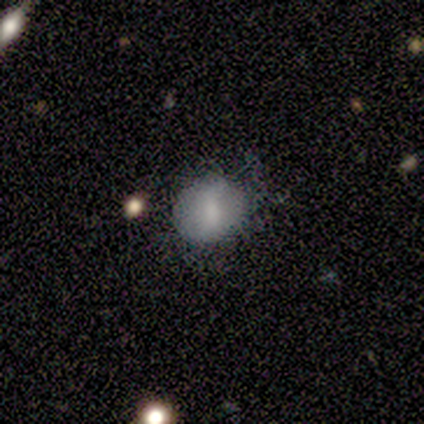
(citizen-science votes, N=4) Smooth or featured? smooth (75%)
How rounded? round (100%)
Merging? none (100%)